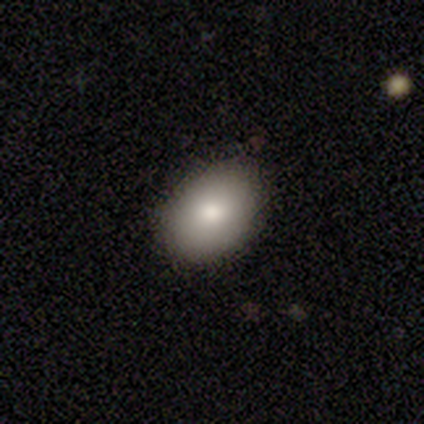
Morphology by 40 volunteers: smooth-or-featured: smooth: 88% | star or artifact: 10% | featured or disk: 2%
  how-rounded: in between: 74% | round: 26% | cigar-shaped: 0%
  merging: none: 75% | minor disturbance: 25% | major disturbance: 0% | merger: 0%